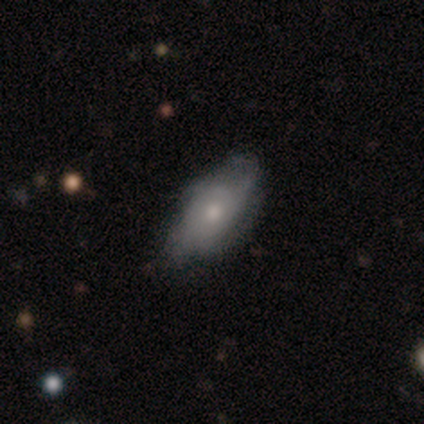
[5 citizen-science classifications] This is clearly a featured or disk galaxy (100%). It is clearly not viewed edge-on (100%). Bar: clearly no (100%). Spiral arm pattern: clearly yes (80%). Spiral arm count: likely 4 (75%). Spiral winding: possibly tight (50%). Central bulge: likely moderate (60%). Merging: clearly none (80%).